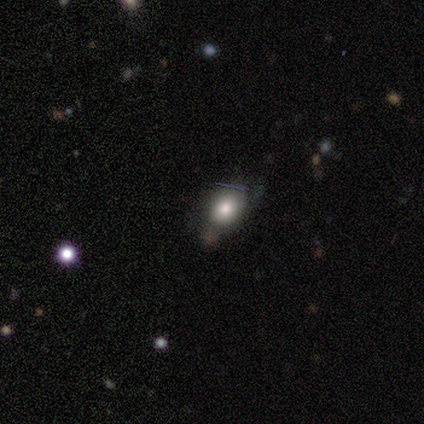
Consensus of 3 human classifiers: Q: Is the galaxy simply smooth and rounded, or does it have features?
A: smooth — 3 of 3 (100%).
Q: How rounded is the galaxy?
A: round — 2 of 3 (67%).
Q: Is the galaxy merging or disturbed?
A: none — 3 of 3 (100%).